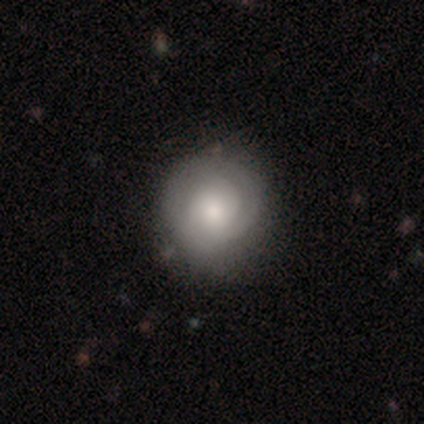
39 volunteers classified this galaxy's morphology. Q: Smooth or featured?
A: smooth (51%); runner-up: featured or disk (33%)
Q: How rounded?
A: round (95%); runner-up: in between (5%)
Q: Merging?
A: none (82%); runner-up: minor disturbance (18%)